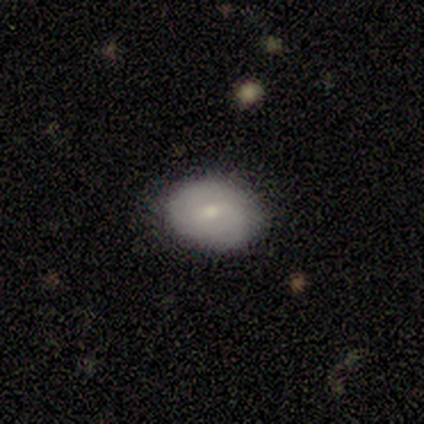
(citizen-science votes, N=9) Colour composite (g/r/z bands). It shows a smooth galaxy with no disk features (56%) that is in between round and cigar-shaped (80%). Merging: none (88%).